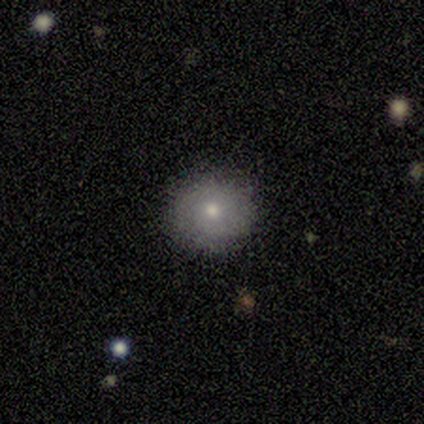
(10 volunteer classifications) This is likely a smooth galaxy (70%). How rounded: clearly round (100%). Merging: clearly none (89%).